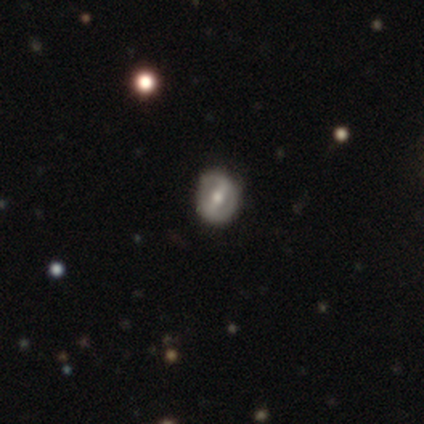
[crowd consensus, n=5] featured or disk 80%, smooth 20%, star or artifact 0%. Down the decision tree: edge-on disk — no (100%); bar — strong (50%, tied with weak); spiral arms — no (100%); bulge size — moderate (75%); merging — none (80%).